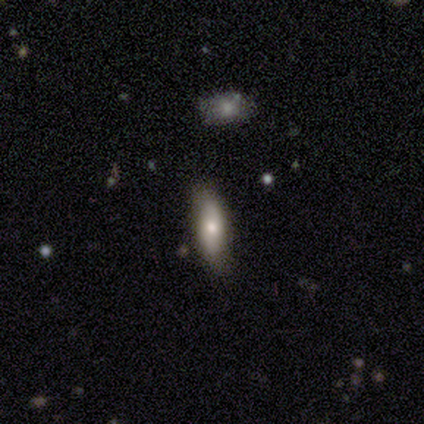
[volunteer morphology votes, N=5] Smooth or featured? smooth (80%)
How rounded? in between (50%, tied with cigar-shaped)
Merging? none (100%)